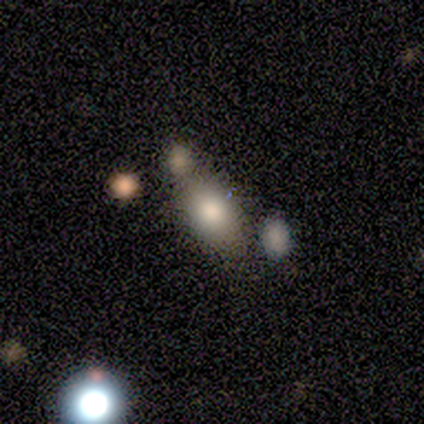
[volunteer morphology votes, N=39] type=smooth (72%); roundness=in between (96%); merging=none (43%).